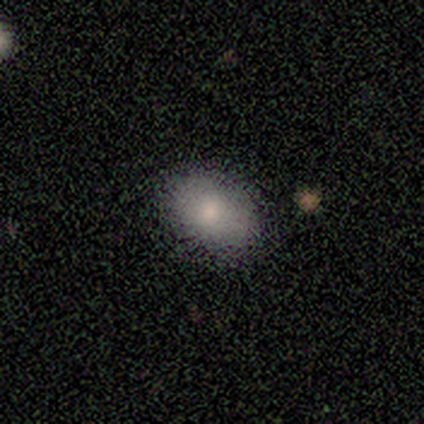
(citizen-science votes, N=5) smooth 100%, featured or disk 0%, star or artifact 0%. Down the decision tree: how rounded — in between (60%); merging — none (80%).